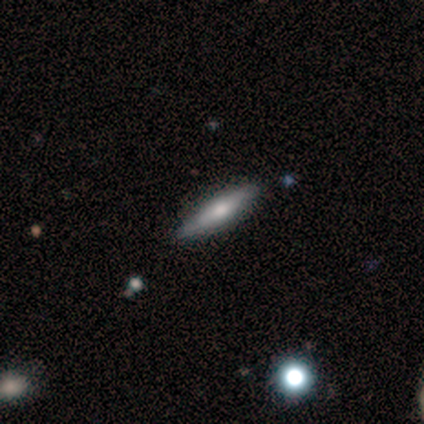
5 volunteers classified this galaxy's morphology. Smooth or featured?
  - smooth: 60% *
  - featured or disk: 20%
  - star or artifact: 20%
How rounded?
  - cigar-shaped: 100% *
  - round: 0%
  - in between: 0%
Merging?
  - none: 75% *
  - minor disturbance: 25%
  - major disturbance: 0%
  - merger: 0%